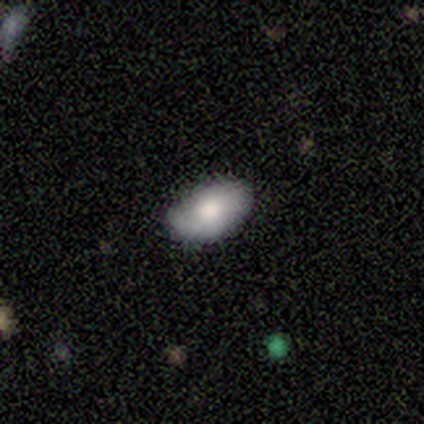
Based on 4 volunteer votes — Morphology: type=smooth (100%); roundness=in between (100%); merging=none (100%).